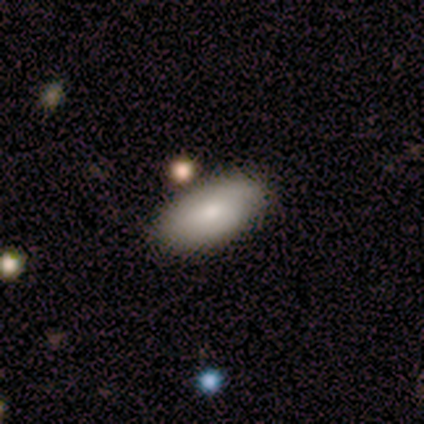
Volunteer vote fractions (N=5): A smooth galaxy with no disk features (100%) that is in between round and cigar-shaped (80%). Merging: none (80%).